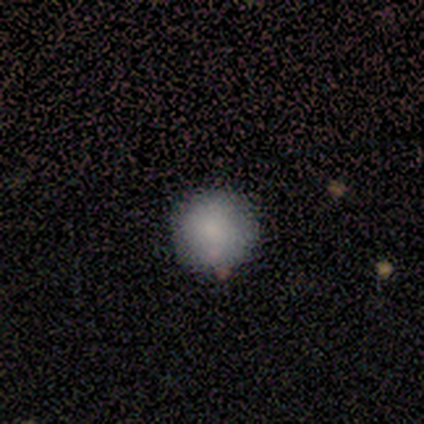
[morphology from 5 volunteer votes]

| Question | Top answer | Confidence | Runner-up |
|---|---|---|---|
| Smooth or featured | smooth | 100% | — |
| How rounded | round | 100% | — |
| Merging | none | 80% | minor disturbance (20%) |